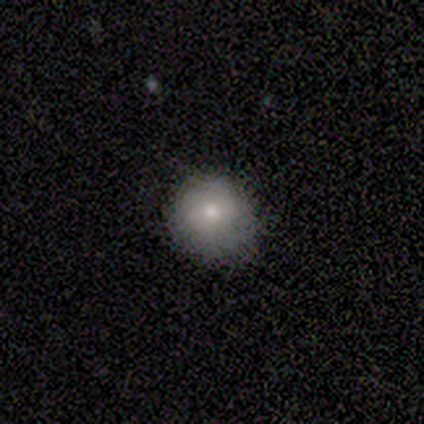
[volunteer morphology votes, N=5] A smooth galaxy with no disk features (60%) that is round (67%). Merging: none (60%).